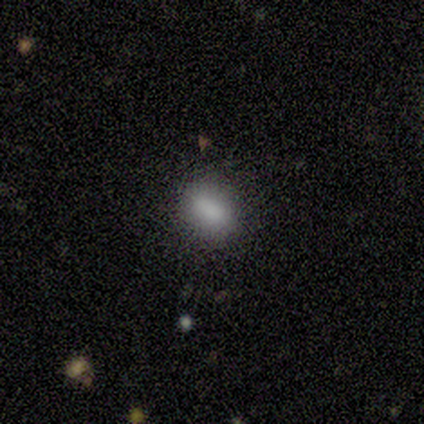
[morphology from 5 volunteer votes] Smooth or featured: smooth — 100%
How rounded: round — 40% (tied with in between — 40%)
Merging: none — 100%